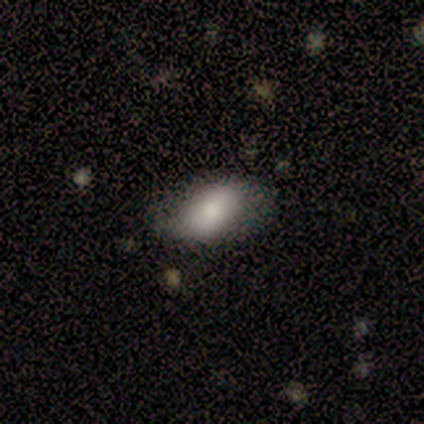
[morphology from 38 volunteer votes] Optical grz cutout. It shows a smooth galaxy with no disk features (82%) that is in between round and cigar-shaped (94%). Merging: none (76%).